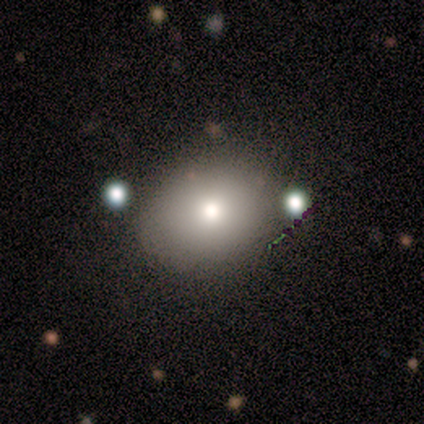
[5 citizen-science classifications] Smooth or featured? 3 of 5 (60%) said smooth. How rounded? 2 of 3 (67%) said round. Merging? 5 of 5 (100%) said none.